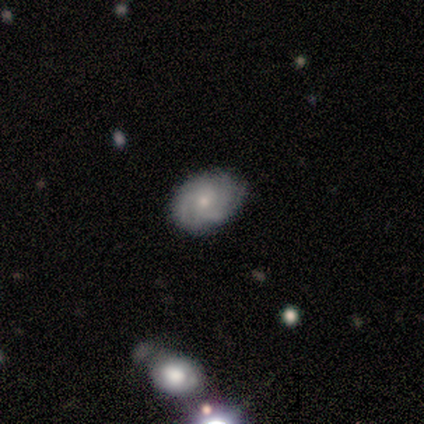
Morphology: type=featured or disk (100%); edge-on=no (100%); bar=weak (60%); spiral arms=yes (100%); winding=tight (100%); arm count=3 (40%, tied with can't tell); bulge=small (80%); merging=none (80%).